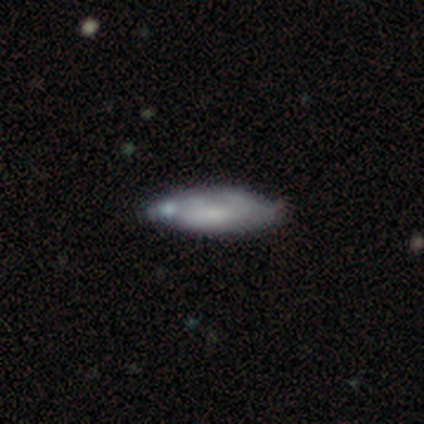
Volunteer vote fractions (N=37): A featured or disk galaxy (51%) with no bar (82%), no spiral arms (73%) and a moderate central bulge (36%, tied with small).

Vote fractions:
- Smooth or featured? featured or disk: 51% / smooth: 43% / star or artifact: 5%
- Edge-on disk? no: 58% / yes: 42%
- Bar? no: 82% / weak: 18% / strong: 0%
- Spiral arms? no: 73% / yes: 27%
- Bulge size? moderate: 36% (tied) / small: 36% (tied) / none: 27% / dominant: 0% / large: 0%
- Merging? none: 46% / minor disturbance: 23% / merger: 17% / major disturbance: 3%